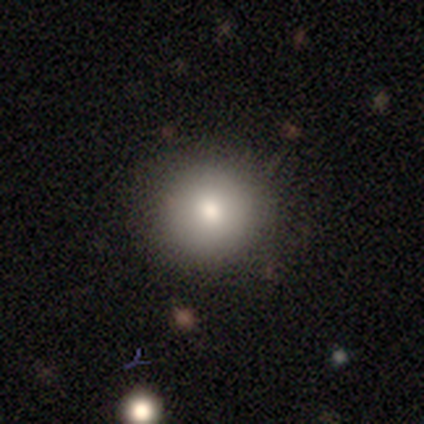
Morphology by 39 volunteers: Overall: smooth (74%). How rounded: round (93%). Merging: none (88%).